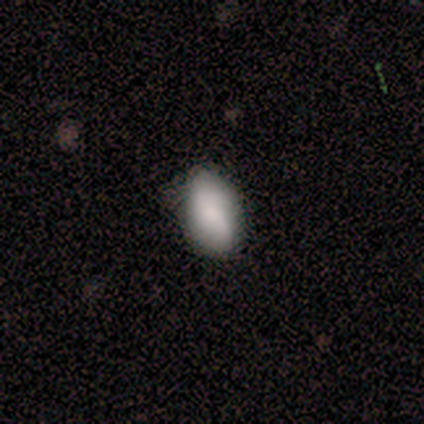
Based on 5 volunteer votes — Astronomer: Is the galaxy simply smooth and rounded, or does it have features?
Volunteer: smooth — 80%.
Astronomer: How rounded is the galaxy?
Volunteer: in between — 75%.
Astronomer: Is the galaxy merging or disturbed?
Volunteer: none — 100%.